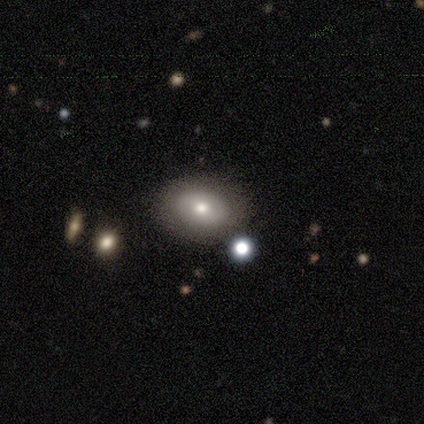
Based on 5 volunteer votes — Smooth or featured?
  - featured or disk: 60% *
  - smooth: 40%
  - star or artifact: 0%
Edge-on disk?
  - no: 100% *
  - yes: 0%
Bar?
  - no: 67% *
  - weak: 33%
  - strong: 0%
Spiral arms?
  - no: 100% *
  - yes: 0%
Bulge size?
  - moderate: 100% *
  - dominant: 0%
  - large: 0%
  - small: 0%
  - none: 0%
Merging?
  - none: 80% *
  - minor disturbance: 20%
  - major disturbance: 0%
  - merger: 0%